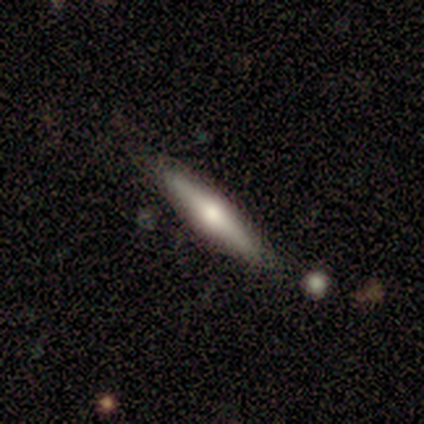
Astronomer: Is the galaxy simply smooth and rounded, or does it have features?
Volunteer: featured or disk — 80%.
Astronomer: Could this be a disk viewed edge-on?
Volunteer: yes — 100%.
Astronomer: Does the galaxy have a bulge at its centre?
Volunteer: rounded — 100%.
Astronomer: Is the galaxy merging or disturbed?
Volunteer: none — 60% (runner-up: minor disturbance, 40%).